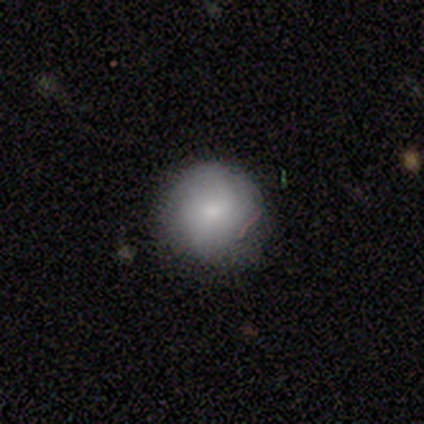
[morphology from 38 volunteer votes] Volunteers were most divided on "merging": none: 77%, minor disturbance: 23%, major disturbance: 0%, merger: 0%. More confident: how rounded — round (96%); smooth or featured — smooth (74%).